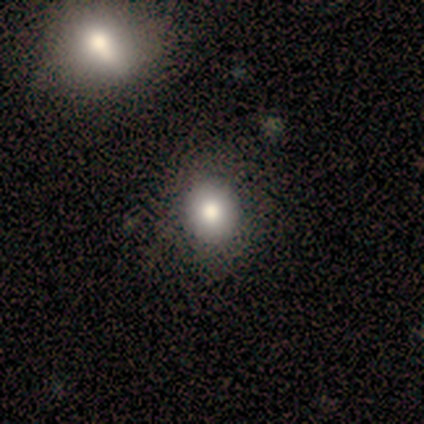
Volunteers were most divided on "how rounded": round: 60%, in between: 40%, cigar-shaped: 0%. More confident: smooth or featured — smooth (83%); merging — none (60%).